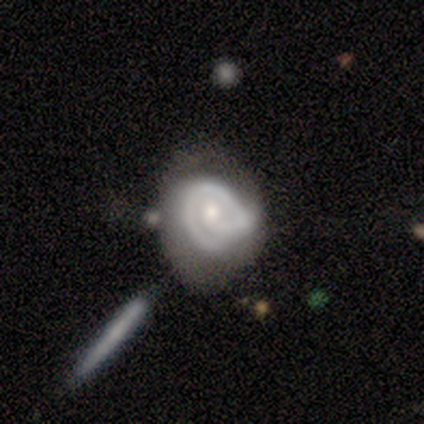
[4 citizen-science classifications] Q: Smooth or featured?
A: featured or disk (50%); runner-up: smooth (25%)
Q: Edge-on disk?
A: no (100%)
Q: Bar?
A: no (100%)
Q: Spiral arms?
A: yes (100%)
Q: Spiral winding?
A: tight (50%); tied with: loose (50%)
Q: Spiral arm count?
A: 1 (100%)
Q: Bulge size?
A: moderate (50%); tied with: small (50%)
Q: Merging?
A: major disturbance (67%); runner-up: merger (33%)